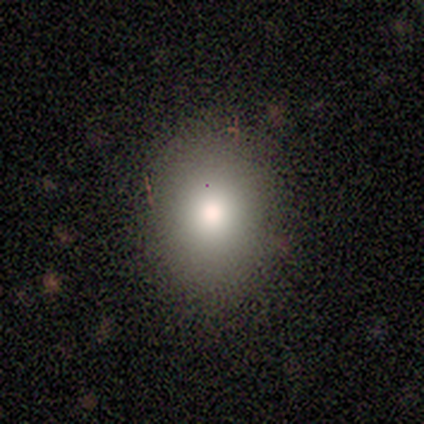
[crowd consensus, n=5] This is likely a smooth galaxy (60%). How rounded: clearly in between (100%). Merging: likely none (75%).